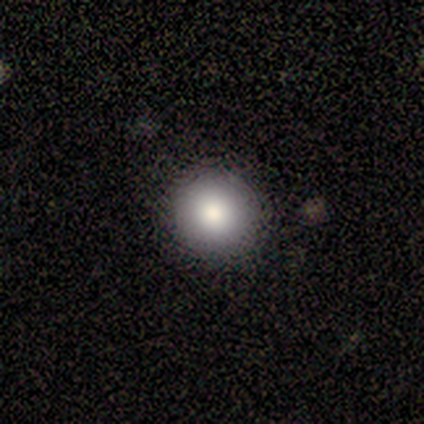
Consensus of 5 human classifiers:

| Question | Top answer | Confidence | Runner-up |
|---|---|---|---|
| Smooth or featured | smooth | 80% | star or artifact (20%) |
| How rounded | round | 100% | — |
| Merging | none | 100% | — |